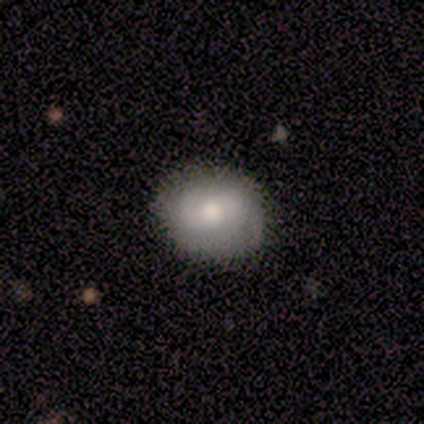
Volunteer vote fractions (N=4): Volunteers were most divided on "bar": weak: 67%, no: 33%, strong: 0%. More confident: edge-on disk — no (100%); spiral arms — yes (100%); bulge size — moderate (100%); smooth or featured — featured or disk (75%); merging — none (75%); spiral winding — tight (67%); spiral arm count — 2 (67%).